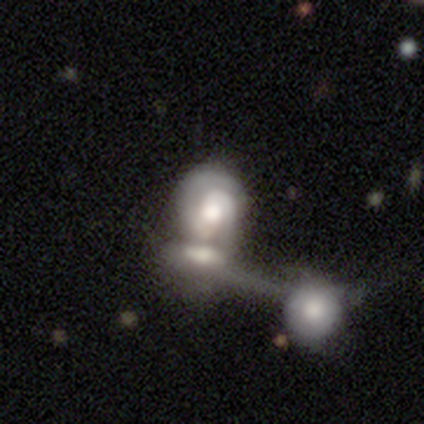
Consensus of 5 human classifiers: A featured or disk galaxy (100%) with no bar (60%), 2 (80%) tight (80%) spiral arms (100%) and a moderate central bulge (100%).

Vote fractions:
- Smooth or featured? featured or disk: 100% / smooth: 0% / star or artifact: 0%
- Edge-on disk? no: 100% / yes: 0%
- Bar? no: 60% / weak: 40% / strong: 0%
- Spiral arms? yes: 100% / no: 0%
- Spiral winding? tight: 80% / medium: 20% / loose: 0%
- Spiral arm count? 2: 80% / can't tell: 20% / 1: 0% / 3: 0% / 4: 0% / more than 4: 0%
- Bulge size? moderate: 100% / dominant: 0% / large: 0% / small: 0% / none: 0%
- Merging? merger: 60% / none: 40% / minor disturbance: 0% / major disturbance: 0%